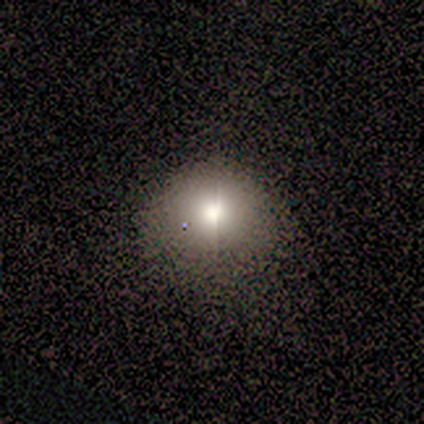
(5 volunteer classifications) Smooth or featured: smooth — 60% (featured or disk — 40%)
How rounded: round — 67% (in between — 33%)
Merging: none — 60% (minor disturbance — 40%)